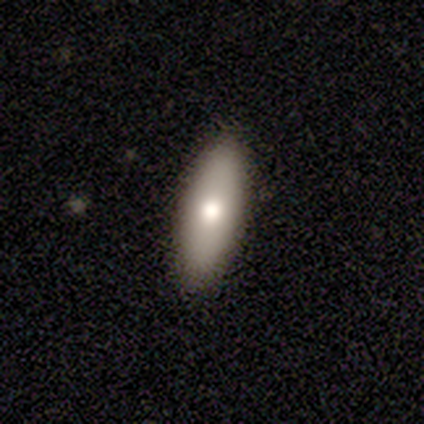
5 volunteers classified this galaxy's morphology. This appears to be a smooth galaxy with no disk features (80%) that is in between round and cigar-shaped (50%, tied with cigar-shaped). Merging: none (100%).